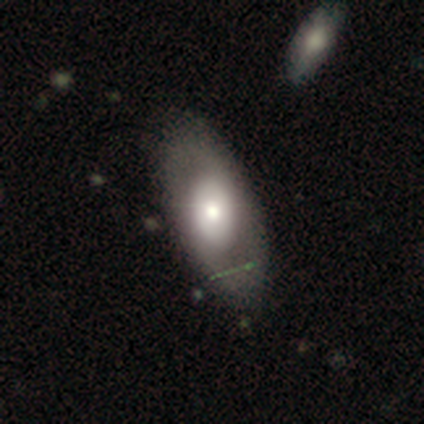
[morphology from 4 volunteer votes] Overall: featured or disk (75%). Edge-on disk: no (67%; yes 33%). Bar: no (100%). Spiral arms: no (100%). Bulge size: large (100%). Merging: none (75%).